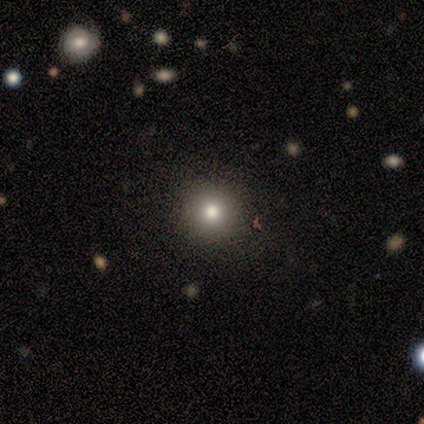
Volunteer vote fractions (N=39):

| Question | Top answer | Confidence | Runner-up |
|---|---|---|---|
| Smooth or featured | smooth | 72% | star or artifact (18%) |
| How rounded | round | 96% | in between (4%) |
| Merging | none | 97% | minor disturbance (3%) |